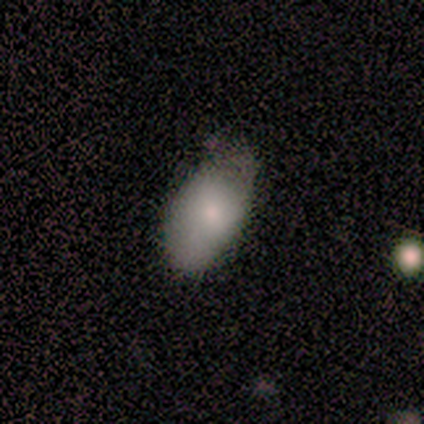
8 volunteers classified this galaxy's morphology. Overall: smooth (88%). How rounded: in between (100%). Merging: none (62%; minor disturbance 38%).